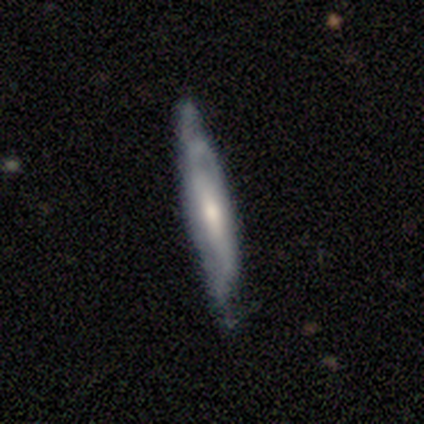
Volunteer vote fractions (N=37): Volunteers were most divided on "edge-on disk": yes: 61%, no: 39%. More confident: smooth or featured — featured or disk (89%); merging — none (76%); edge-on bulge — rounded (70%).